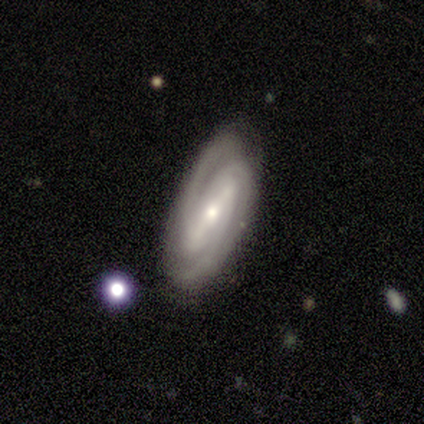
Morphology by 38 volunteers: Smooth or featured?
  - featured or disk: 87% *
  - smooth: 11%
  - star or artifact: 3%
Edge-on disk?
  - no: 100% *
  - yes: 0%
Bar?
  - strong: 73% *
  - weak: 21%
  - no: 6%
Spiral arms?
  - yes: 100% *
  - no: 0%
Spiral winding?
  - tight: 64% *
  - medium: 33%
  - loose: 3%
Spiral arm count?
  - 2: 91% *
  - 3: 6%
  - can't tell: 3%
  - 1: 0%
  - 4: 0%
  - more than 4: 0%
Bulge size?
  - moderate: 55% *
  - small: 45%
  - dominant: 0%
  - large: 0%
  - none: 0%
Merging?
  - none: 62% *
  - minor disturbance: 19%
  - major disturbance: 11%
  - merger: 8%